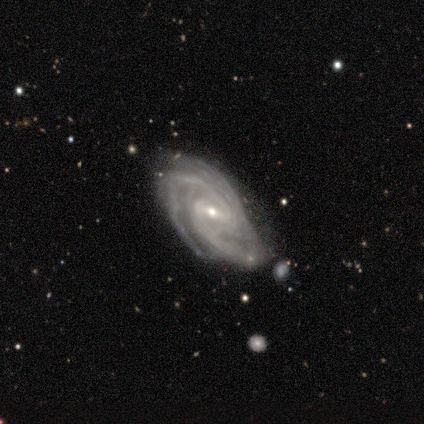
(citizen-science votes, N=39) A featured or disk galaxy (92%) with a weak bar (56%), 2 (36%) tight (61%) spiral arms (100%) and a small central bulge (58%).

Vote fractions:
- Smooth or featured? featured or disk: 92% / smooth: 8% / star or artifact: 0%
- Edge-on disk? no: 100% / yes: 0%
- Bar? weak: 56% / strong: 31% / no: 14%
- Spiral arms? yes: 100% / no: 0%
- Spiral winding? tight: 61% / medium: 33% / loose: 6%
- Spiral arm count? 2: 36% / 3: 25% / 4: 19% / can't tell: 11% / more than 4: 8% / 1: 0%
- Bulge size? small: 58% / moderate: 39% / large: 3% / dominant: 0% / none: 0%
- Merging? none: 49% / minor disturbance: 31% / major disturbance: 13% / merger: 8%